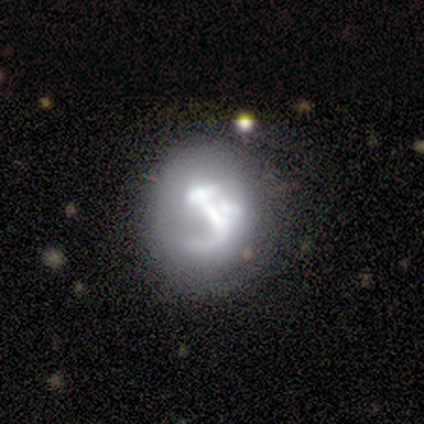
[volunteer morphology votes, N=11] Smooth or featured? featured or disk (82%)
Edge-on disk? no (100%)
Bar? no (67%)
Spiral arms? no (67%)
Bulge size? none (44%)
Merging? none (40%, tied with major disturbance)